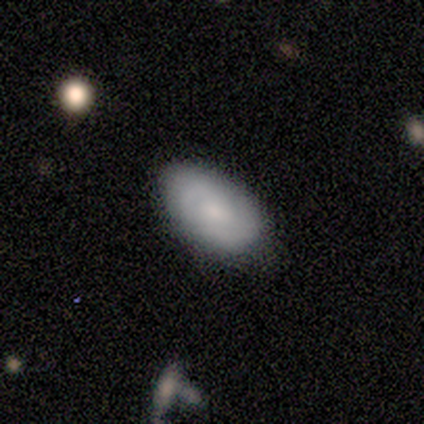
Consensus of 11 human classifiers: This is likely a smooth galaxy (64%). How rounded: clearly in between (100%). Merging: likely none (73%).